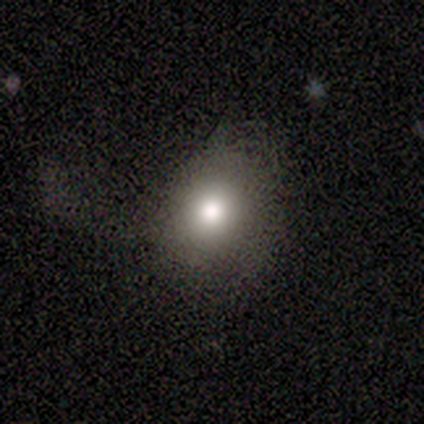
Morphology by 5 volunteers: smooth-or-featured: smooth: 100% | featured or disk: 0% | star or artifact: 0%
  how-rounded: round: 60% | in between: 40% | cigar-shaped: 0%
  merging: none: 40% (tied) | minor disturbance: 40% (tied) | major disturbance: 20% | merger: 0%